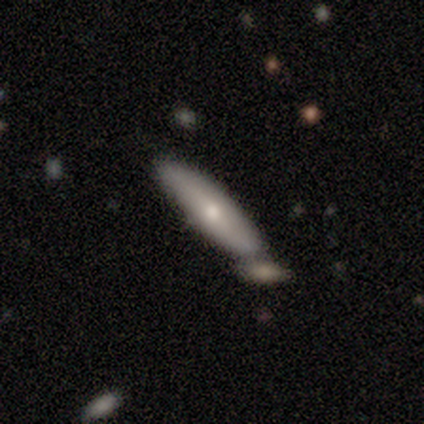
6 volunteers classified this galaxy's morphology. Q: Smooth or featured?
A: smooth (67%); runner-up: featured or disk (33%)
Q: How rounded?
A: in between (50%); tied with: cigar-shaped (50%)
Q: Merging?
A: none (50%); tied with: merger (50%)